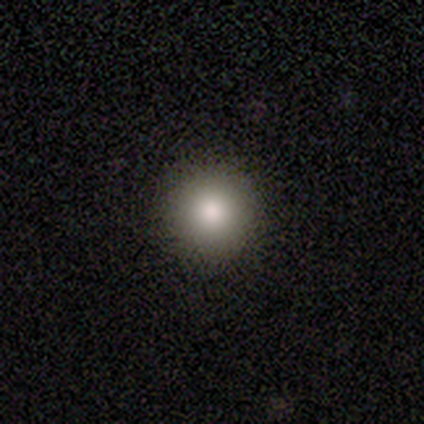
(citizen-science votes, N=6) A smooth galaxy with no disk features (100%) that is round (100%).

Vote fractions:
- Smooth or featured? smooth: 100% / featured or disk: 0% / star or artifact: 0%
- How rounded? round: 100% / in between: 0% / cigar-shaped: 0%
- Merging? none: 83% / minor disturbance: 17% / major disturbance: 0% / merger: 0%